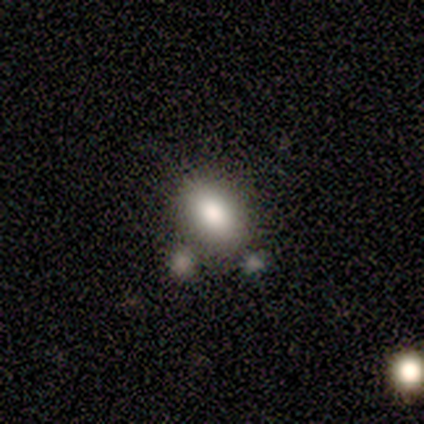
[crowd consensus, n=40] smooth 80%, star or artifact 12%, featured or disk 8%. Down the decision tree: how rounded — in between (88%); merging — none (51%).